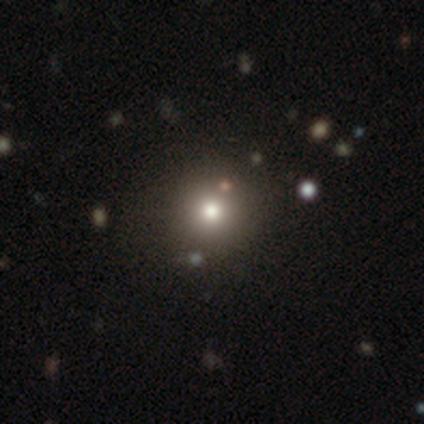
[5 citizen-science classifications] smooth-or-featured: smooth: 40% (tied) | star or artifact: 40% (tied) | featured or disk: 20%
  how-rounded: round: 100% | in between: 0% | cigar-shaped: 0%
  merging: none: 67% | minor disturbance: 33% | major disturbance: 0% | merger: 0%